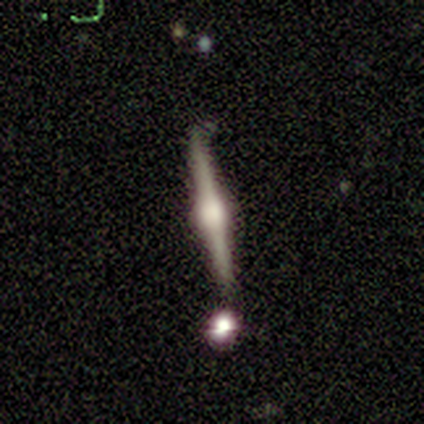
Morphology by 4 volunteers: smooth_or_featured: featured or disk (p=1.00)
disk_edge_on: yes (p=1.00)
edge_on_bulge: rounded (p=1.00)
merging: none (p=0.75) [alt: minor disturbance p=0.25]